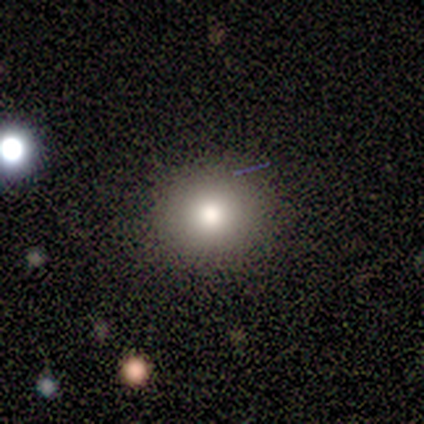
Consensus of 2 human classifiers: Smooth or featured? smooth (100%)
How rounded? round (100%)
Merging? none (100%)